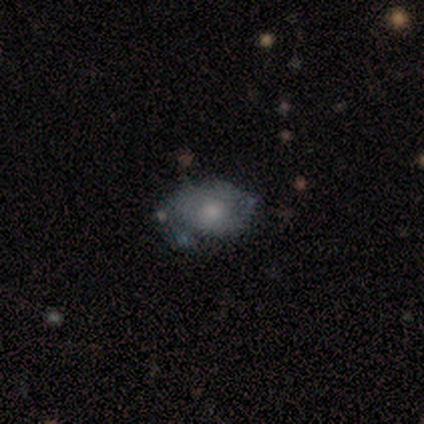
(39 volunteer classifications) smooth 54%, featured or disk 44%, star or artifact 3%. Down the decision tree: how rounded — in between (90%); merging — none (66%).